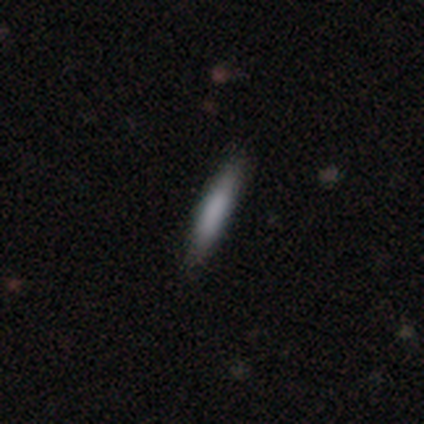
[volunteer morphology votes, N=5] Smooth or featured: smooth — 60% (featured or disk — 20%)
How rounded: in between — 67% (cigar-shaped — 33%)
Merging: none — 75% (major disturbance — 25%)